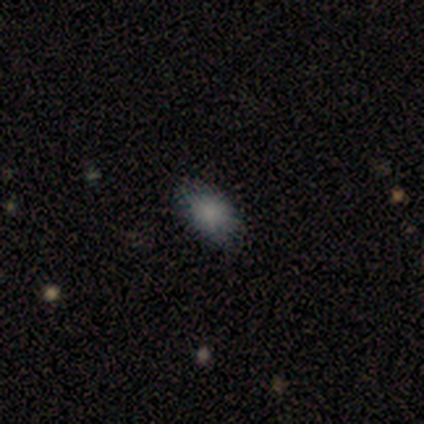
Q: Smooth or featured?
A: smooth (100%)
Q: How rounded?
A: in between (100%)
Q: Merging?
A: none (60%); runner-up: minor disturbance (40%)